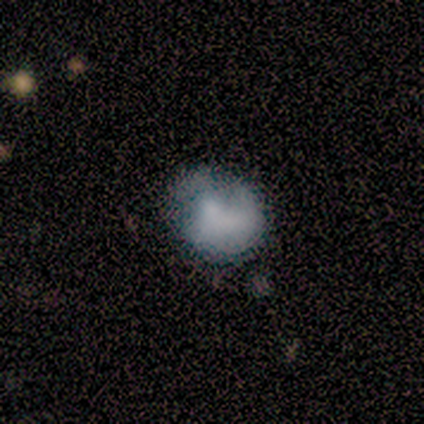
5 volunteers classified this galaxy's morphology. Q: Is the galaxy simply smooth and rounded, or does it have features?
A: smooth — 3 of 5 (60%).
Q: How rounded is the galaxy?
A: round — 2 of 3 (67%).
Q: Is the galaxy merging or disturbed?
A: minor disturbance — 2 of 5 (40%, tied with major disturbance).